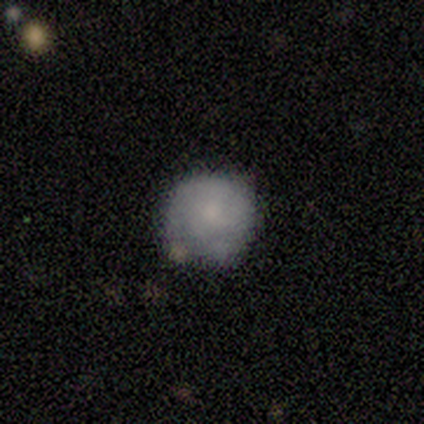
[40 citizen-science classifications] Smooth or featured: smooth — 65% (featured or disk — 32%)
How rounded: round — 100%
Merging: none — 62% (minor disturbance — 33%)